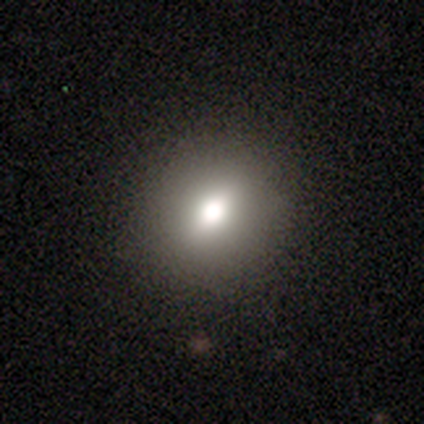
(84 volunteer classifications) Smooth or featured: smooth — 65% (featured or disk — 25%)
How rounded: round — 67% (in between — 33%)
Merging: none — 95% (minor disturbance — 3%)